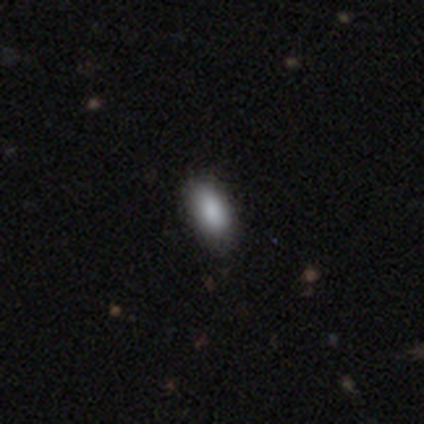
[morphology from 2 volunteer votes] This appears to be a smooth galaxy with no disk features (100%) that is in between round and cigar-shaped (100%). Merging: none (100%).